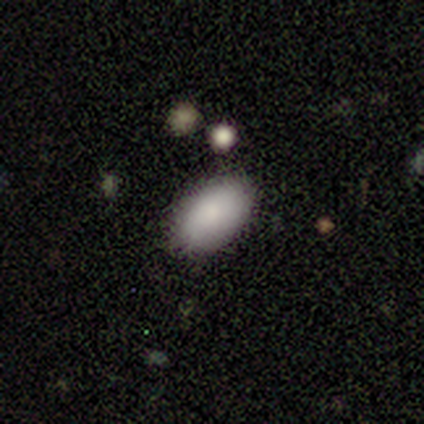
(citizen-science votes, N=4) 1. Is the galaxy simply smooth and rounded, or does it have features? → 75% smooth, 25% star or artifact, 0% featured or disk.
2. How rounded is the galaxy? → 100% in between, 0% round, 0% cigar-shaped.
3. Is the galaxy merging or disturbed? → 100% none, 0% minor disturbance, 0% major disturbance, 0% merger.